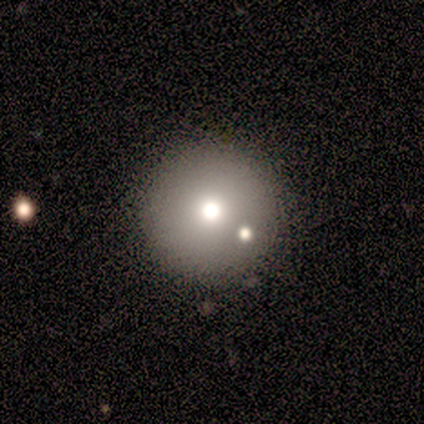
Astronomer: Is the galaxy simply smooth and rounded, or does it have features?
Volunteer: star or artifact — 60% (runner-up: smooth, 40%).